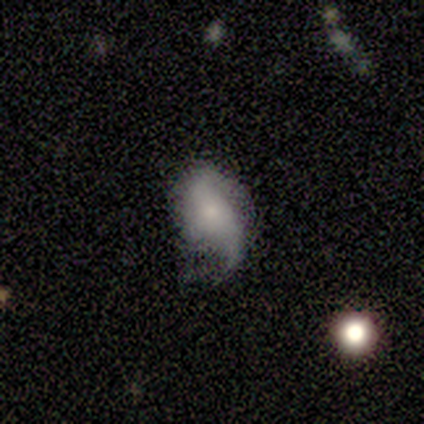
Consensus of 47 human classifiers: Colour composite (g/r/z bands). It shows a featured or disk galaxy (53%) with no bar (68%), 2 (59%) loose (59%) spiral arms (88%) and a small central bulge (44%). Merging: minor disturbance (40%, tied with major disturbance).